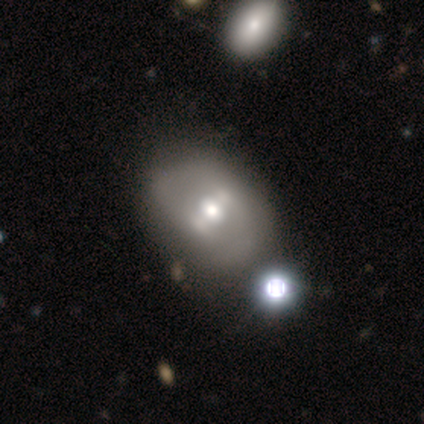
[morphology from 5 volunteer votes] type=smooth (40%, tied with featured or disk); roundness=round (50%, tied with in between); merging=minor disturbance (75%).